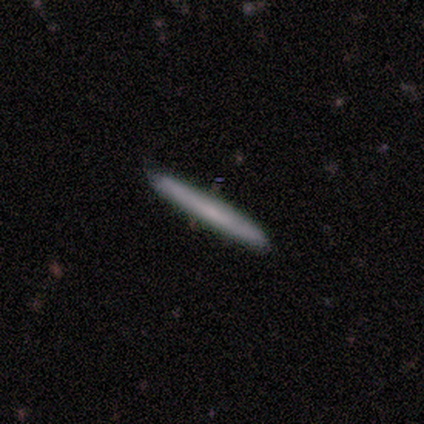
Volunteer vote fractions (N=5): featured or disk 60%, smooth 40%, star or artifact 0%. Down the decision tree: edge-on disk — yes (100%); edge-on bulge — rounded (67%); merging — none (100%).